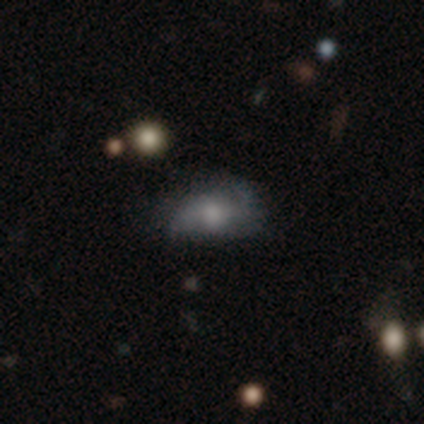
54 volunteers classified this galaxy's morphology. Smooth or featured? 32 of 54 (59%) said featured or disk. Edge-on disk? 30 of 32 (94%) said no. Bar? 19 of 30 (63%) said no. Spiral arms? 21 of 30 (70%) said yes. Spiral winding? 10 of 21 (48%) said loose. Spiral arm count? 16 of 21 (76%) said 2. Bulge size? 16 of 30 (53%) said moderate. Merging? 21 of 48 (44%) said minor disturbance.